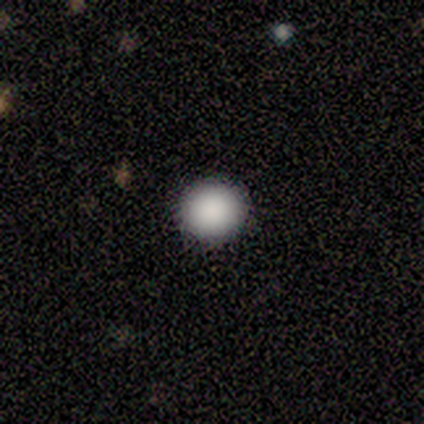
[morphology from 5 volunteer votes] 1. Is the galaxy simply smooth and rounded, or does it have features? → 80% smooth, 20% featured or disk, 0% star or artifact.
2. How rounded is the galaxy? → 100% round, 0% in between, 0% cigar-shaped.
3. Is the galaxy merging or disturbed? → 100% none, 0% minor disturbance, 0% major disturbance, 0% merger.